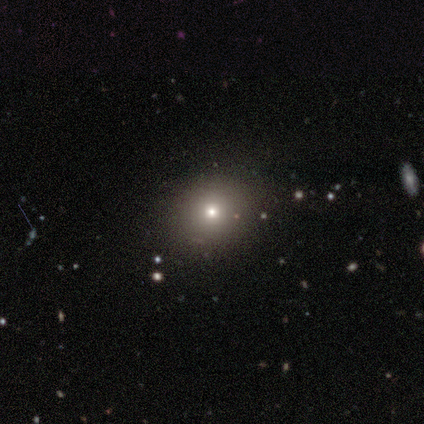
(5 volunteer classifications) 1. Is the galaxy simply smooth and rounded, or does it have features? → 100% smooth, 0% featured or disk, 0% star or artifact.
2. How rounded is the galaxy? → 80% round, 20% in between, 0% cigar-shaped.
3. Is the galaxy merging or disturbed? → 80% none, 20% minor disturbance, 0% major disturbance, 0% merger.